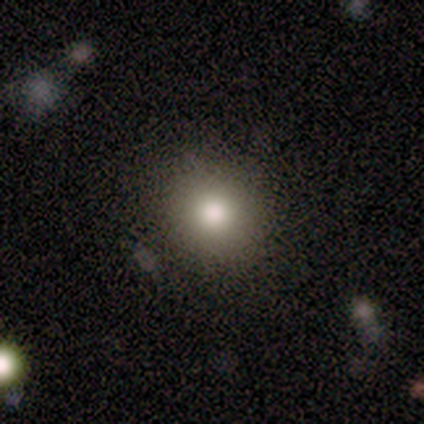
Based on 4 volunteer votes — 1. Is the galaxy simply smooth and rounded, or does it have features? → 50% smooth, 25% featured or disk, 25% star or artifact.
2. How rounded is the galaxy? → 100% round, 0% in between, 0% cigar-shaped.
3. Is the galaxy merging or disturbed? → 100% none, 0% minor disturbance, 0% major disturbance, 0% merger.